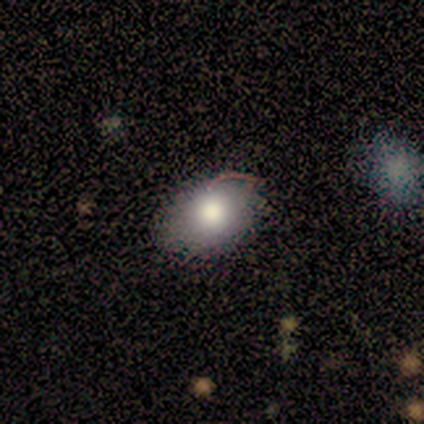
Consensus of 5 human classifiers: Volunteers were most divided on "merging" (2-way tie): none: 50%, major disturbance: 50%, minor disturbance: 0%, merger: 0%. More confident: smooth or featured — smooth (80%); how rounded — in between (75%).